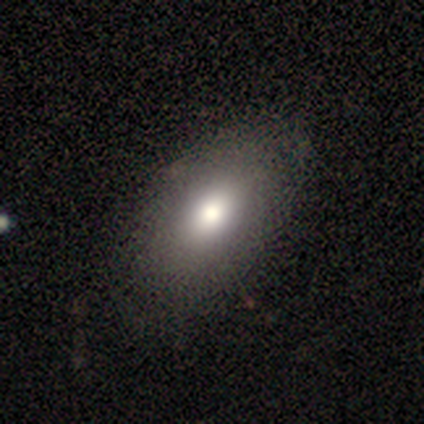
Overall: smooth (70%). How rounded: in between (93%). Merging: none (64%).